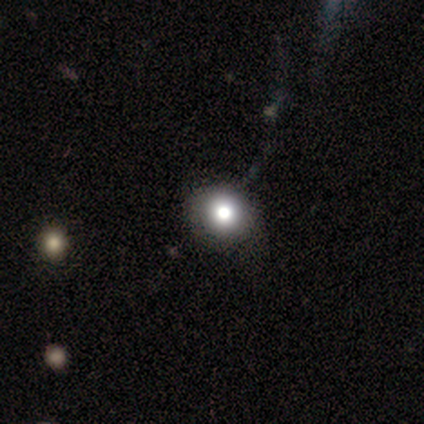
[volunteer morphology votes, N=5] smooth_or_featured: smooth (p=0.80) [alt: featured or disk p=0.20]
how_rounded: round (p=1.00)
merging: none (p=0.60) [alt: minor disturbance p=0.40]